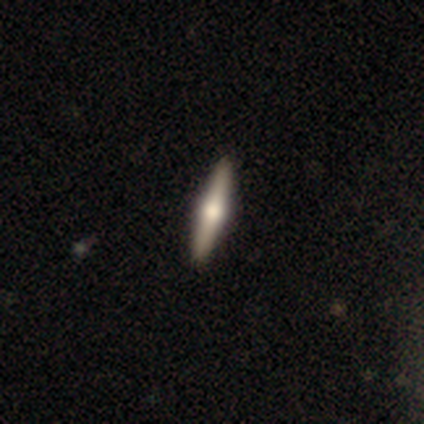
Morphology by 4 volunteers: Smooth or featured? smooth (75%)
How rounded? cigar-shaped (100%)
Merging? none (100%)